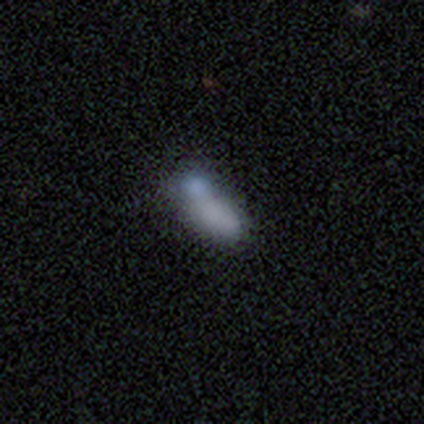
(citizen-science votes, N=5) Volunteers were most divided on "merging": merger: 75%, none: 25%, minor disturbance: 0%, major disturbance: 0%. More confident: how rounded — in between (100%); smooth or featured — smooth (80%).